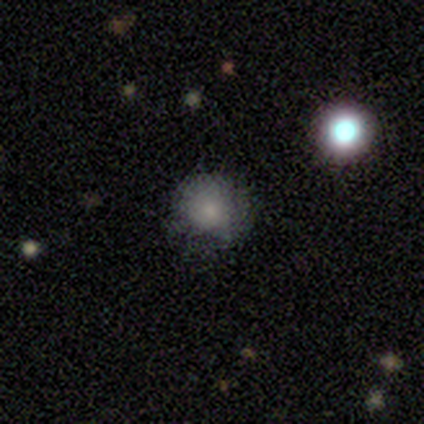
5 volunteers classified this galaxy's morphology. Overall: featured or disk (60%; smooth 40%). Edge-on disk: no (100%). Bar: no (100%). Spiral arms: no (100%). Bulge size: small (100%). Merging: none (40%, tied with major disturbance).